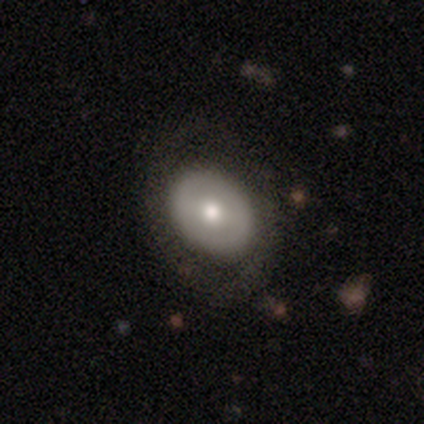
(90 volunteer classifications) Q: Smooth or featured?
A: smooth (47%); tied with: featured or disk (47%)
Q: How rounded?
A: in between (57%); runner-up: round (43%)
Q: Merging?
A: none (80%); runner-up: minor disturbance (13%)